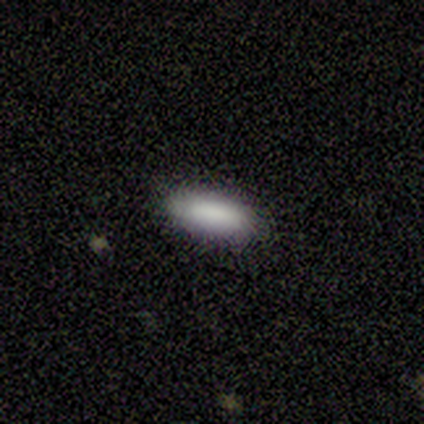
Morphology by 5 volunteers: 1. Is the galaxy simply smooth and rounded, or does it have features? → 100% smooth, 0% featured or disk, 0% star or artifact.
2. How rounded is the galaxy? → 80% cigar-shaped, 20% in between, 0% round.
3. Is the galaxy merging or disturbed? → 100% none, 0% minor disturbance, 0% major disturbance, 0% merger.